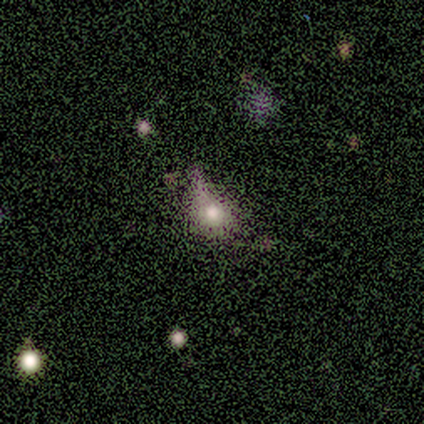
This appears to be a smooth galaxy with no disk features (80%) that is round (100%). Merging: major disturbance (50%).